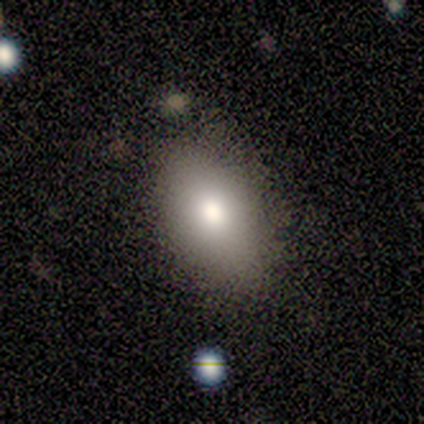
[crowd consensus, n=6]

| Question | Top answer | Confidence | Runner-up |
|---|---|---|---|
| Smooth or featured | smooth | 67% | featured or disk (33%) |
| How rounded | in between | 75% | round (25%) |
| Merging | none | 100% | — |